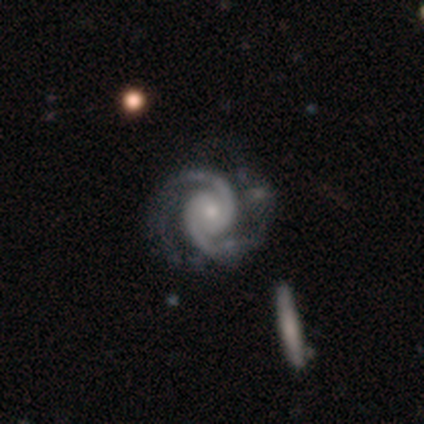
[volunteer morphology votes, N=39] A featured or disk galaxy (95%) with no bar (78%), 2 (94%) tight (49%) spiral arms (97%) and a small central bulge (56%).

Vote fractions:
- Smooth or featured? featured or disk: 95% / star or artifact: 5% / smooth: 0%
- Edge-on disk? no: 97% / yes: 3%
- Bar? no: 78% / weak: 17% / strong: 6%
- Spiral arms? yes: 97% / no: 3%
- Spiral winding? tight: 49% / medium: 43% / loose: 9%
- Spiral arm count? 2: 94% / 3: 6% / 1: 0% / 4: 0% / more than 4: 0% / can't tell: 0%
- Bulge size? small: 56% / moderate: 39% / large: 6% / dominant: 0% / none: 0%
- Merging? none: 68% / minor disturbance: 16% / major disturbance: 11% / merger: 5%